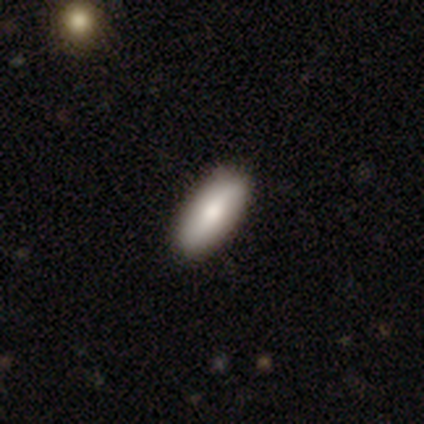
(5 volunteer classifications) This is clearly a smooth galaxy (80%). How rounded: possibly in between (50%, tied with cigar-shaped). Merging: clearly none (80%).